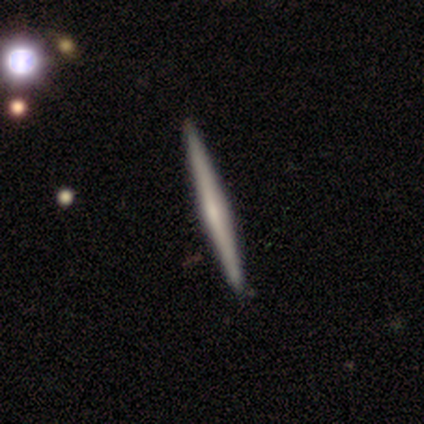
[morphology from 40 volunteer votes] Overall: featured or disk (68%). Edge-on disk: yes (100%). Edge-on bulge: rounded (63%; none 30%). Merging: none (68%).